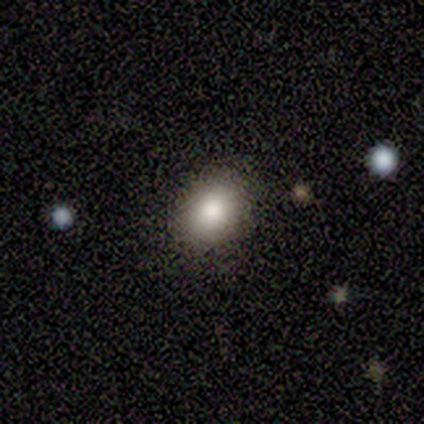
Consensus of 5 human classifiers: smooth_or_featured: smooth (p=1.00)
how_rounded: in between (p=0.80) [alt: round p=0.20]
merging: none (p=1.00)